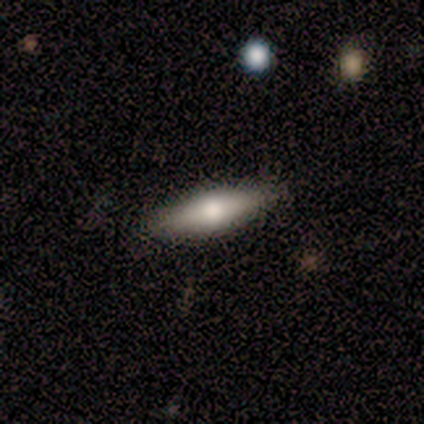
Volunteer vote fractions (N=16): featured or disk 56%, smooth 38%, star or artifact 6%. Down the decision tree: edge-on disk — yes (78%); edge-on bulge — rounded (71%); merging — none (93%).